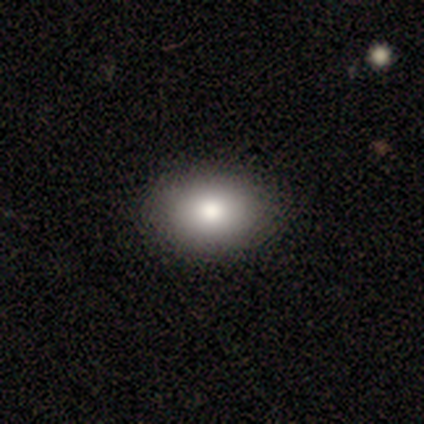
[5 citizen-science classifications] Smooth or featured: smooth — 80% (featured or disk — 20%)
How rounded: in between — 100%
Merging: none — 100%